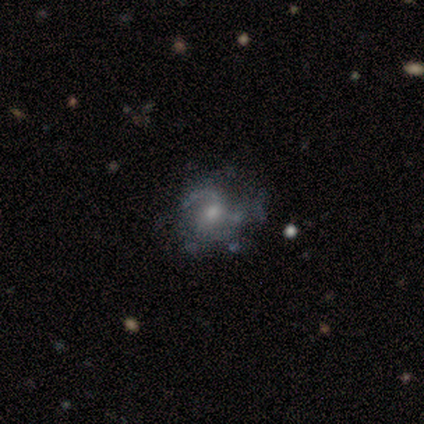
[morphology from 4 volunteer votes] Smooth or featured: star or artifact — 50% (smooth — 25%)